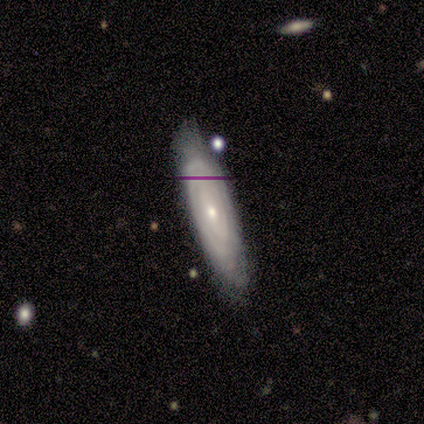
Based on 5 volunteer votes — smooth-or-featured: featured or disk: 80% | smooth: 20% | star or artifact: 0%
  disk-edge-on: no: 75% | yes: 25%
    bar: no: 67% | weak: 33% | strong: 0%
    has-spiral-arms: yes: 67% | no: 33%
      spiral-winding: tight: 50% (tied) | loose: 50% (tied) | medium: 0%
      spiral-arm-count: can't tell: 100% | 1: 0% | 2: 0% | 3: 0% | 4: 0% | more than 4: 0%
    bulge-size: small: 67% | none: 33% | dominant: 0% | large: 0% | moderate: 0%
  merging: none: 100% | minor disturbance: 0% | major disturbance: 0% | merger: 0%